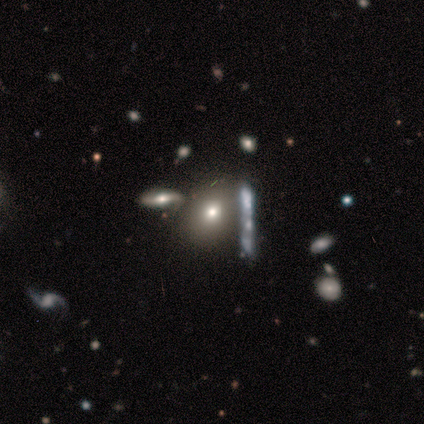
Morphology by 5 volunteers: Q: Smooth or featured?
A: smooth (40%); tied with: star or artifact (40%)
Q: How rounded?
A: round (50%); tied with: in between (50%)
Q: Merging?
A: none (67%); runner-up: minor disturbance (33%)